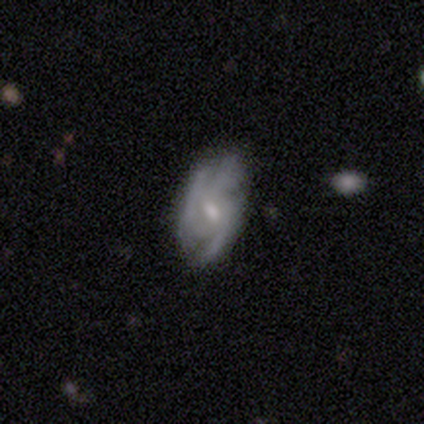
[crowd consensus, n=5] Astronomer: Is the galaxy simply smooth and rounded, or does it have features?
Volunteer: featured or disk — 100%.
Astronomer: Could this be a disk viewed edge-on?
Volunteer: no — 100%.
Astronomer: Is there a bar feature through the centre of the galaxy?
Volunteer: weak — 100%.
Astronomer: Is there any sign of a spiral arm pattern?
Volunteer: yes — 100%.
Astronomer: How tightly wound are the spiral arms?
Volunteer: tight — 40%, tied with medium at 40%.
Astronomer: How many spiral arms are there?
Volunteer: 3 — 80%.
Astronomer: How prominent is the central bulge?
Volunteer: small — 80%.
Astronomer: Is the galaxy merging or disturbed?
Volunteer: none — 100%.